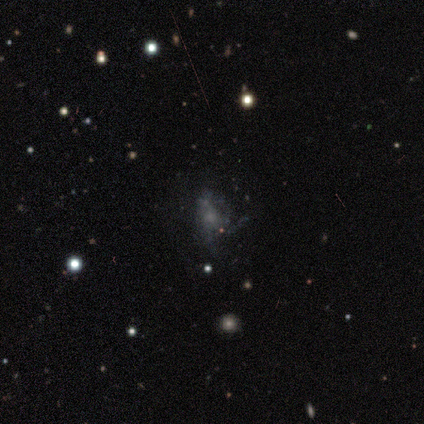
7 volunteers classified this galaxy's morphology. Overall: featured or disk (57%; smooth 43%). Edge-on disk: no (100%). Bar: no (75%). Spiral arms: yes (50%, tied with no). Spiral arm count: can't tell (100%). Spiral winding: medium (50%, tied with loose). Bulge size: small (50%, tied with none). Merging: major disturbance (43%; merger 29%).